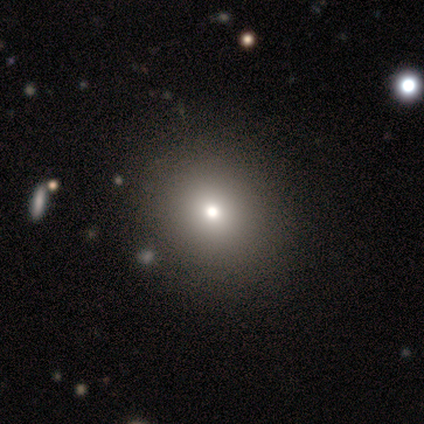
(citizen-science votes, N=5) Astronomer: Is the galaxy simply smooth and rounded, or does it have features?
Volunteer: smooth — 60% (runner-up: star or artifact, 40%).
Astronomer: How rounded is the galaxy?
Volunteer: round — 67%.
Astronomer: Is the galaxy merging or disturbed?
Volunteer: none — 67%.